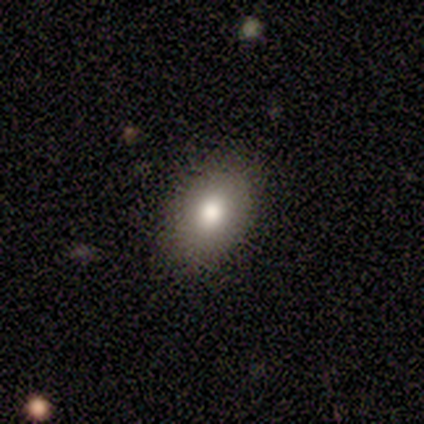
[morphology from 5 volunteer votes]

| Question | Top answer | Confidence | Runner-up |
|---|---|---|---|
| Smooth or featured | smooth | 80% | featured or disk (20%) |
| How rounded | in between | 75% | round (25%) |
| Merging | none | 100% | — |